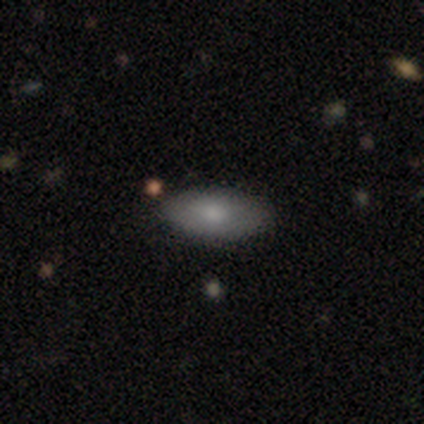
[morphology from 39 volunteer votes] smooth_or_featured: smooth (p=0.79) [alt: star or artifact p=0.13]
how_rounded: in between (p=0.97) [alt: cigar-shaped p=0.03]
merging: none (p=0.91) [alt: minor disturbance p=0.06]